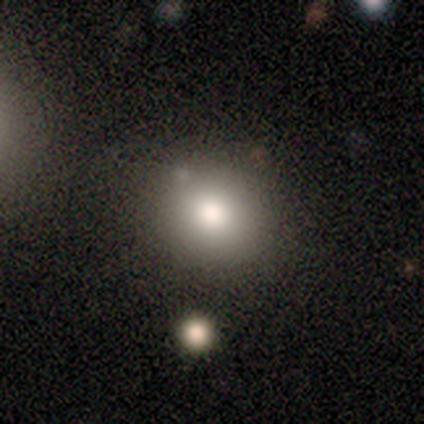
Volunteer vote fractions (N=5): Smooth or featured? 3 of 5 (60%) said smooth. How rounded? 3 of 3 (100%) said round. Merging? 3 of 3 (100%) said none.